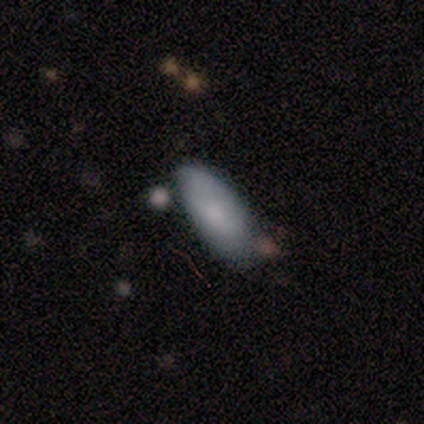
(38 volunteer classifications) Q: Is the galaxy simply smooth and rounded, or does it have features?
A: smooth — 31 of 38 (82%).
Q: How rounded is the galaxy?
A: in between — 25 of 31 (81%).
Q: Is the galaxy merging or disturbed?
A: none — 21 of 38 (55%).